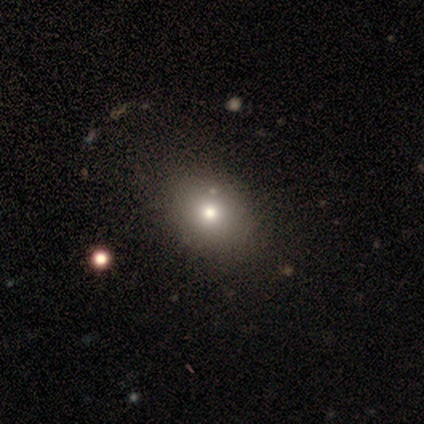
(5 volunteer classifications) Smooth or featured? 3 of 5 (60%) said smooth. How rounded? 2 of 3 (67%) said in between. Merging? 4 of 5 (80%) said none.